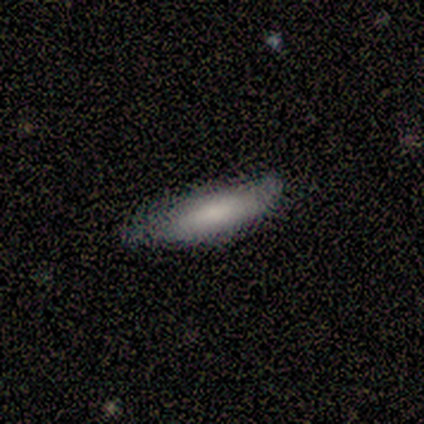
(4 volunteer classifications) A smooth galaxy with no disk features (50%) that is in between round and cigar-shaped (50%, tied with cigar-shaped). Merging: minor disturbance (67%).